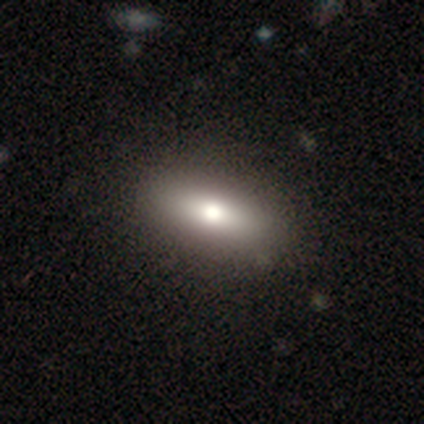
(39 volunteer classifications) This appears to be a smooth galaxy with no disk features (77%) that is in between round and cigar-shaped (83%). Merging: none (64%).